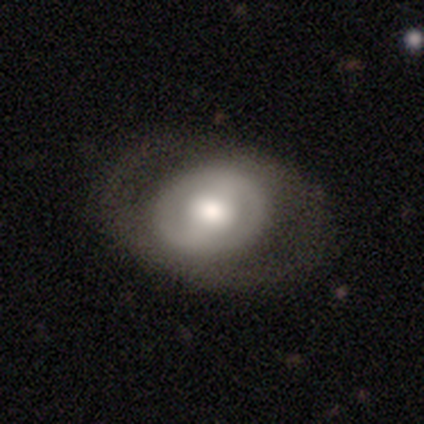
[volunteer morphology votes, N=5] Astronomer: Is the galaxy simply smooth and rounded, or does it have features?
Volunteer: smooth — 60% (runner-up: featured or disk, 40%).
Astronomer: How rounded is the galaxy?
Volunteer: round — 100%.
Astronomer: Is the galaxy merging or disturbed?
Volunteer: none — 80%.